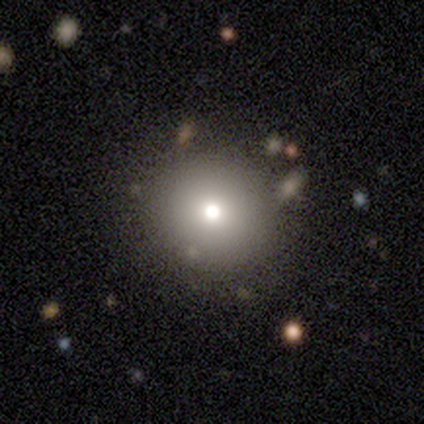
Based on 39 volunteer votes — Overall: smooth (64%; featured or disk 26%). How rounded: round (96%). Merging: none (83%).